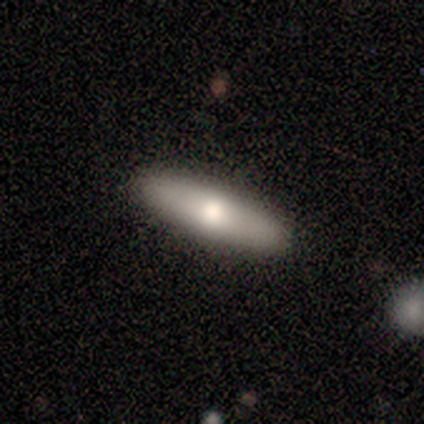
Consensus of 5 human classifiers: Smooth or featured?
  - featured or disk: 60% *
  - smooth: 40%
  - star or artifact: 0%
Edge-on disk?
  - yes: 67% *
  - no: 33%
Edge-on bulge?
  - none: 50% * (tied)
  - rounded: 50% * (tied)
  - boxy: 0%
Merging?
  - none: 80% *
  - minor disturbance: 20%
  - major disturbance: 0%
  - merger: 0%